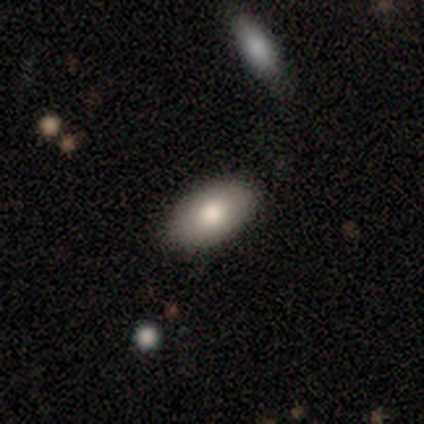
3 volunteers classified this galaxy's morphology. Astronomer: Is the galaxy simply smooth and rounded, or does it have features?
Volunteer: featured or disk — 67%.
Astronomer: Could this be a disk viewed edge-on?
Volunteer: yes — 50%, tied with no at 50%.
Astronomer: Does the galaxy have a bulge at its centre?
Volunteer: rounded — 100%.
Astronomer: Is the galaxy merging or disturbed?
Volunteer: none — 100%.